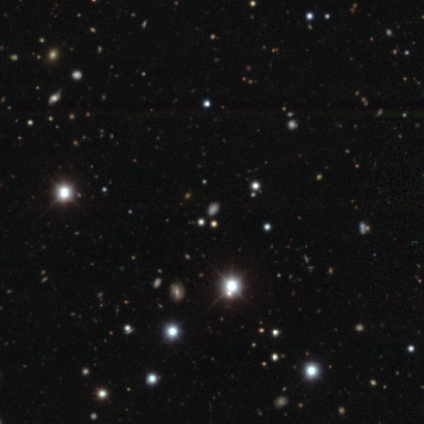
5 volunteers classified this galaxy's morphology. smooth_or_featured: star or artifact (p=0.80) [alt: smooth p=0.20]